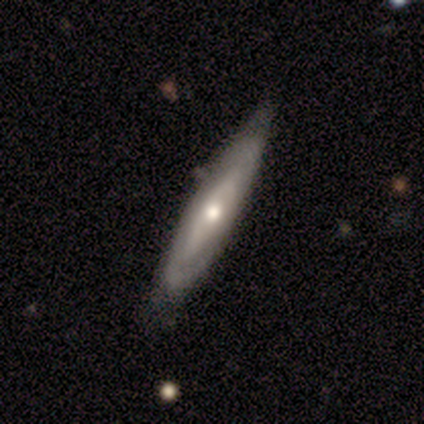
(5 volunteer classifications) A smooth galaxy with no disk features (40%, tied with featured or disk) that is in between round and cigar-shaped (50%, tied with cigar-shaped). Merging: none (100%).